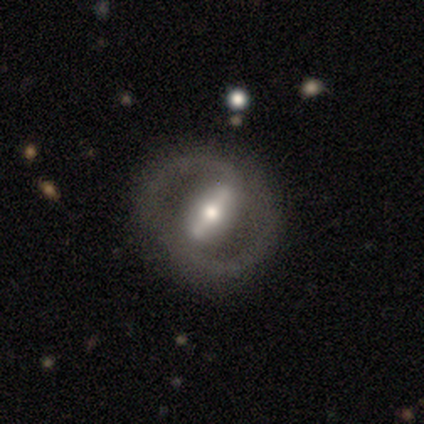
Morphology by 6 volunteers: A featured or disk galaxy (83%) with a strong bar (100%), 2 (100%) tight (50%, tied with medium) spiral arms (67%) and a moderate central bulge (67%). Merging: none (100%).